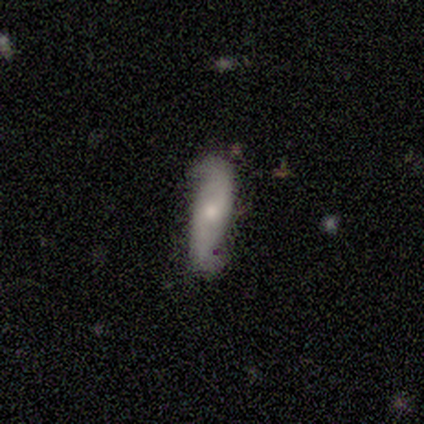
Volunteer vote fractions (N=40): Smooth or featured?
  - featured or disk: 62% *
  - smooth: 35%
  - star or artifact: 2%
Edge-on disk?
  - no: 84% *
  - yes: 16%
Bar?
  - no: 52% *
  - strong: 29%
  - weak: 19%
Spiral arms?
  - yes: 100% *
  - no: 0%
Spiral winding?
  - loose: 81% *
  - tight: 14%
  - medium: 5%
Spiral arm count?
  - 2: 95% *
  - 1: 5%
  - 3: 0%
  - 4: 0%
  - more than 4: 0%
  - can't tell: 0%
Bulge size?
  - small: 67% *
  - moderate: 33%
  - dominant: 0%
  - large: 0%
  - none: 0%
Merging?
  - none: 64% *
  - minor disturbance: 31%
  - major disturbance: 5%
  - merger: 0%